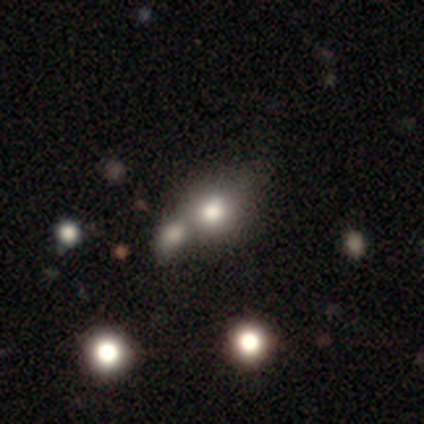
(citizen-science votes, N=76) Overall: smooth (88%). How rounded: round (51%; in between 48%). Merging: merger (63%).